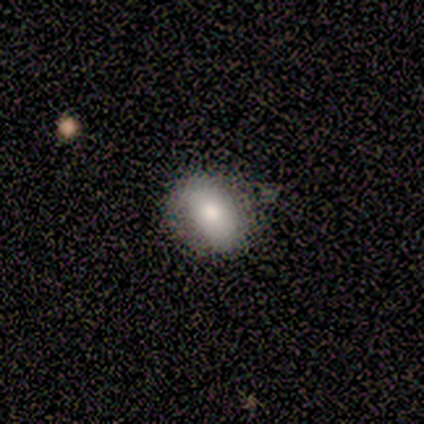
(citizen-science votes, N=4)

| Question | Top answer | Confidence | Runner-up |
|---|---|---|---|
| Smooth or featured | smooth | 50% | tied: featured or disk (50%) |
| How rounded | round | 50% | tied: in between (50%) |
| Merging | none | 50% | tied: minor disturbance (50%) |